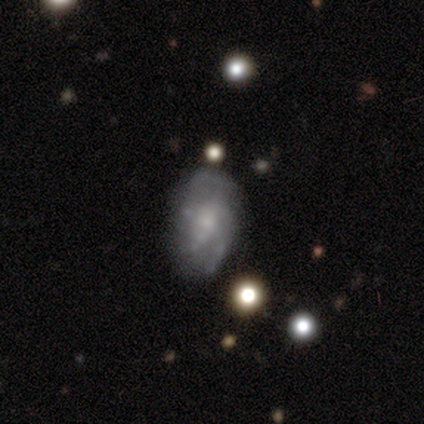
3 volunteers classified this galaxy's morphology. Smooth or featured: featured or disk — 67% (smooth — 33%)
Edge-on disk: no — 100%
Bar: weak — 50% (tied with no — 50%)
Spiral arms: yes — 100%
Spiral winding: medium — 50% (tied with loose — 50%)
Spiral arm count: 3 — 50% (tied with can't tell — 50%)
Bulge size: large — 50% (tied with none — 50%)
Merging: none — 67% (minor disturbance — 33%)